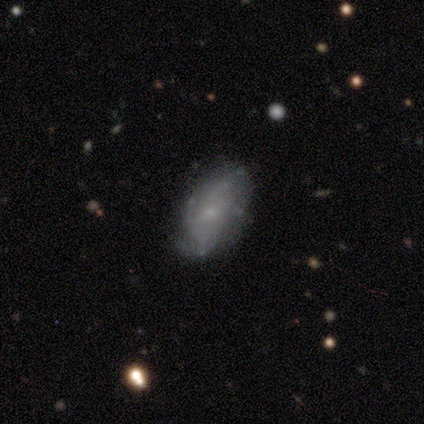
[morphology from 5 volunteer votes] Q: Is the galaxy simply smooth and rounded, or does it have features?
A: featured or disk — 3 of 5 (60%).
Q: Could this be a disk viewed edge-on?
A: no — 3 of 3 (100%).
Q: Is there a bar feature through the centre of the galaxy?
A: no — 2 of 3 (67%).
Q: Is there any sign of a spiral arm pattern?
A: no — 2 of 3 (67%).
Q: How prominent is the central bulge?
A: small — 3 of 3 (100%).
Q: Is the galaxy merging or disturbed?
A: none — 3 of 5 (60%).